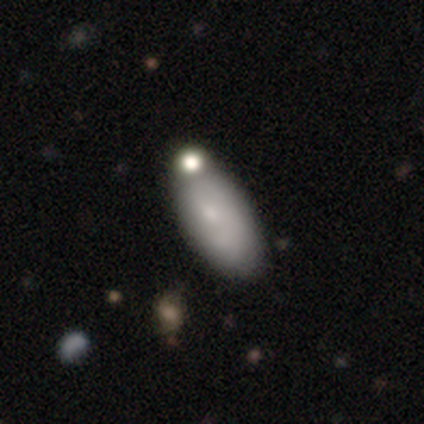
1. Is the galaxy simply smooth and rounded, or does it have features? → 67% smooth, 23% featured or disk, 10% star or artifact.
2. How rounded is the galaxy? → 92% in between, 8% cigar-shaped, 0% round.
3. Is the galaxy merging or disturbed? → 46% none, 34% merger, 14% minor disturbance, 3% major disturbance.